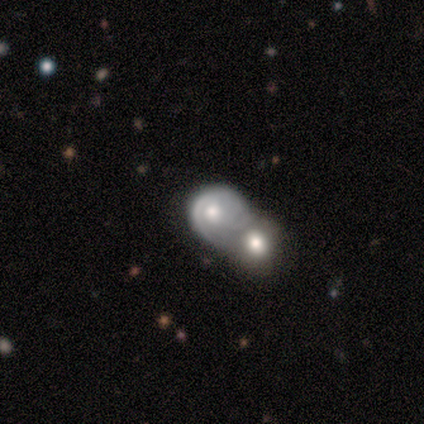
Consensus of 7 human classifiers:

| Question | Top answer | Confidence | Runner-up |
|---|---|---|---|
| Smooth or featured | smooth | 71% | featured or disk (29%) |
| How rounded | round | 80% | in between (20%) |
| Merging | merger | 100% | — |